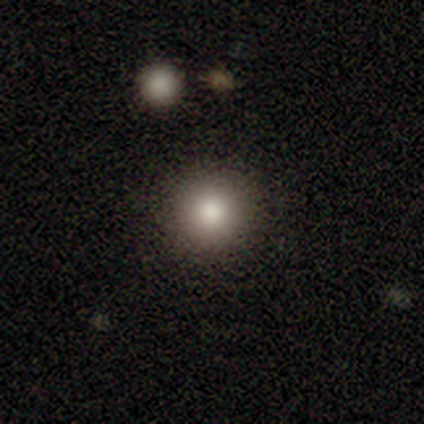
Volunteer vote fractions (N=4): Morphology: type=smooth (75%); roundness=round (100%); merging=none (100%).